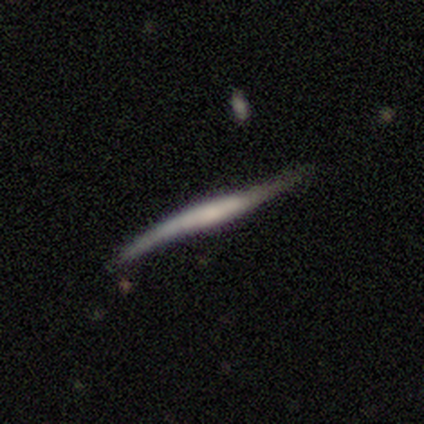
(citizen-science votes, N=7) smooth-or-featured: featured or disk: 86% | smooth: 14% | star or artifact: 0%
  disk-edge-on: yes: 83% | no: 17%
    edge-on-bulge: boxy: 40% (tied) | none: 40% (tied) | rounded: 20%
  merging: none: 71% | minor disturbance: 14% | major disturbance: 14% | merger: 0%